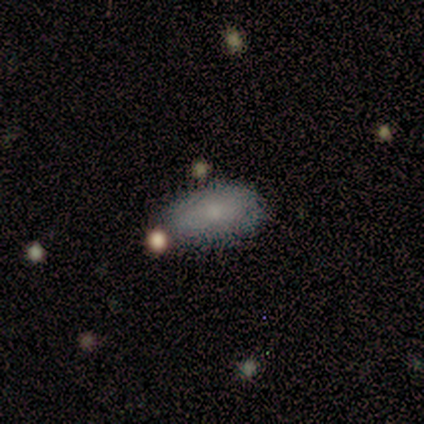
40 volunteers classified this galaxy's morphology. Volunteers were most divided on "smooth or featured": smooth: 68%, featured or disk: 22%, star or artifact: 10%. More confident: how rounded — in between (96%); merging — none (81%).